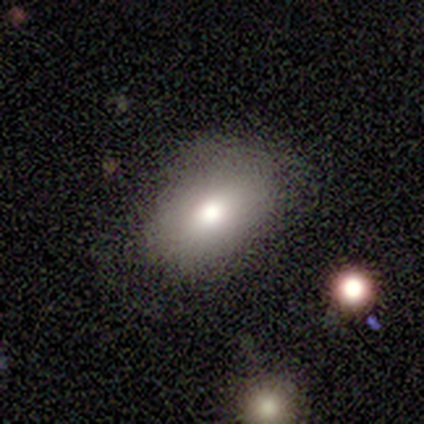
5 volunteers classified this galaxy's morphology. smooth 80%, star or artifact 20%, featured or disk 0%. Down the decision tree: how rounded — in between (100%); merging — none (75%).